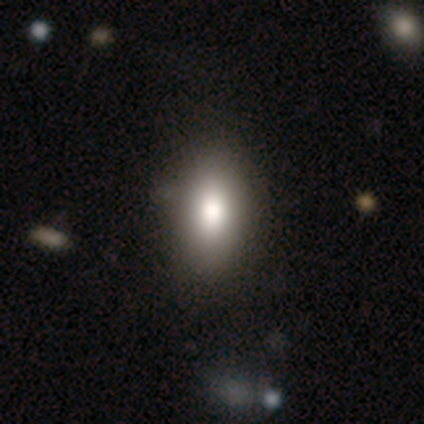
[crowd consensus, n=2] Q: Smooth or featured?
A: smooth (50%); tied with: featured or disk (50%)
Q: How rounded?
A: in between (100%)
Q: Merging?
A: none (50%); tied with: merger (50%)